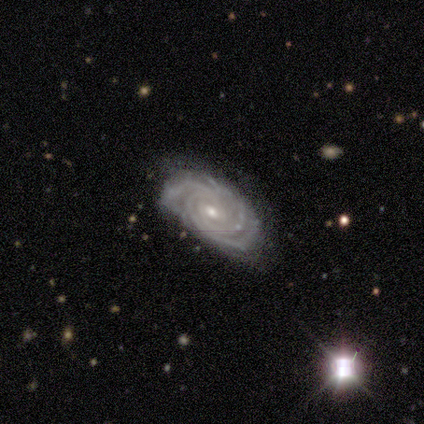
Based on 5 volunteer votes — Smooth or featured? featured or disk (80%)
Edge-on disk? no (100%)
Bar? no (50%)
Spiral arms? yes (100%)
Spiral winding? tight (100%)
Spiral arm count? can't tell (50%)
Bulge size? moderate (75%)
Merging? none (100%)